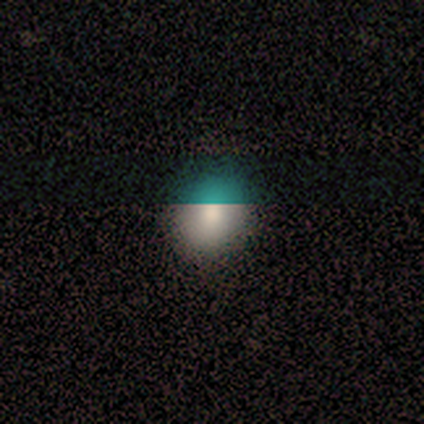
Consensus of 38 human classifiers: Smooth or featured: smooth — 76% (star or artifact — 16%)
How rounded: round — 76% (in between — 24%)
Merging: none — 88% (minor disturbance — 12%)